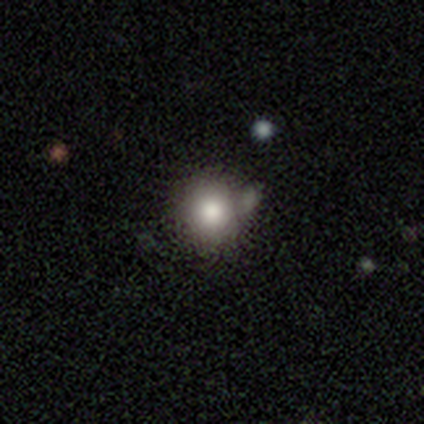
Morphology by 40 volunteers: Volunteers were most divided on "merging": none: 53%, merger: 22%, minor disturbance: 19%, major disturbance: 6%. More confident: how rounded — round (97%); smooth or featured — smooth (82%).